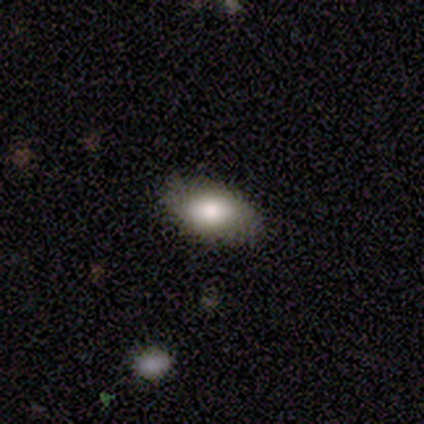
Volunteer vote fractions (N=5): A smooth galaxy with no disk features (100%) that is in between round and cigar-shaped (100%).

Vote fractions:
- Smooth or featured? smooth: 100% / featured or disk: 0% / star or artifact: 0%
- How rounded? in between: 100% / round: 0% / cigar-shaped: 0%
- Merging? none: 100% / minor disturbance: 0% / major disturbance: 0% / merger: 0%